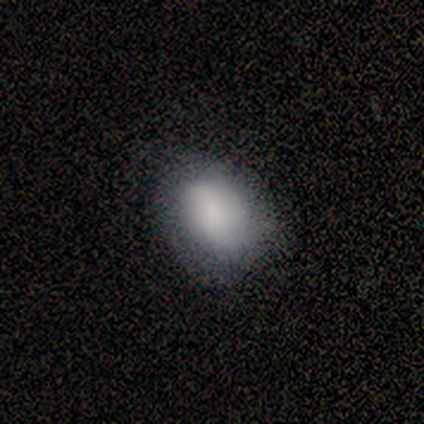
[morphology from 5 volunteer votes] smooth-or-featured: smooth: 100% | featured or disk: 0% | star or artifact: 0%
  how-rounded: in between: 100% | round: 0% | cigar-shaped: 0%
  merging: none: 60% | minor disturbance: 20% | major disturbance: 20% | merger: 0%